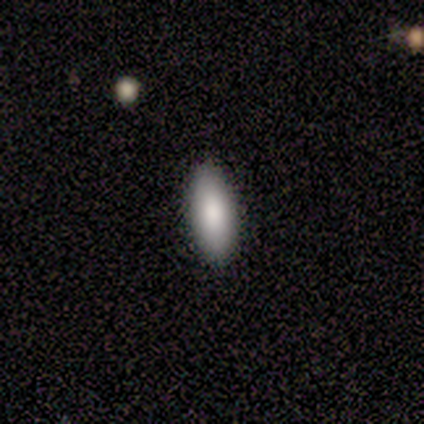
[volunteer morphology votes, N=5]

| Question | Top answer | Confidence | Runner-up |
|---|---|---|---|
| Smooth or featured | smooth | 60% | featured or disk (40%) |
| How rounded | in between | 100% | — |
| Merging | none | 60% | minor disturbance (20%) |